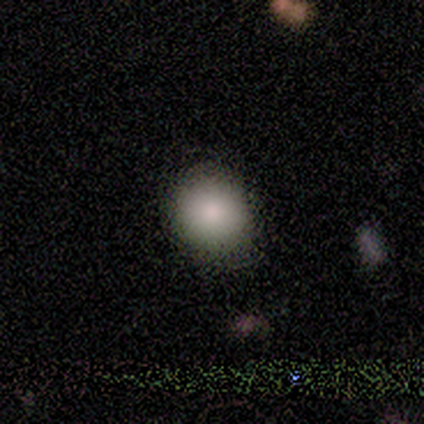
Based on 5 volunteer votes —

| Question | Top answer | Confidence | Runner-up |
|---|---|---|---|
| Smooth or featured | smooth | 100% | — |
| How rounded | round | 100% | — |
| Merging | none | 100% | — |